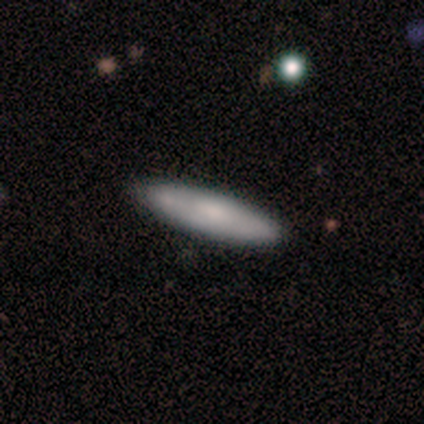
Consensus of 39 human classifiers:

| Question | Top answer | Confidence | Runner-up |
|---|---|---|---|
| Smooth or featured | smooth | 59% | featured or disk (36%) |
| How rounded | cigar-shaped | 70% | in between (30%) |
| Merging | none | 57% | major disturbance (5%) |